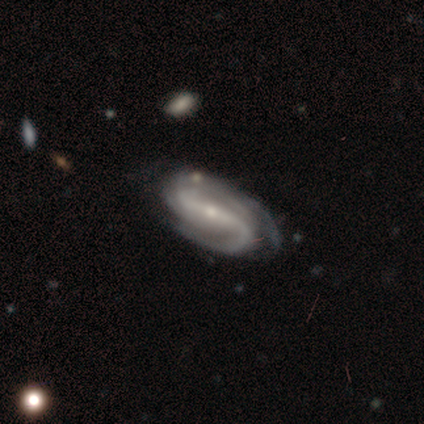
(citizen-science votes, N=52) Q: Smooth or featured?
A: featured or disk (94%); runner-up: smooth (4%)
Q: Edge-on disk?
A: no (92%); runner-up: yes (8%)
Q: Bar?
A: strong (73%); runner-up: weak (16%)
Q: Spiral arms?
A: yes (98%); runner-up: no (2%)
Q: Spiral winding?
A: medium (48%); runner-up: tight (34%)
Q: Spiral arm count?
A: 2 (68%); runner-up: 3 (16%)
Q: Bulge size?
A: small (71%); runner-up: moderate (29%)
Q: Merging?
A: none (47%); runner-up: minor disturbance (35%)